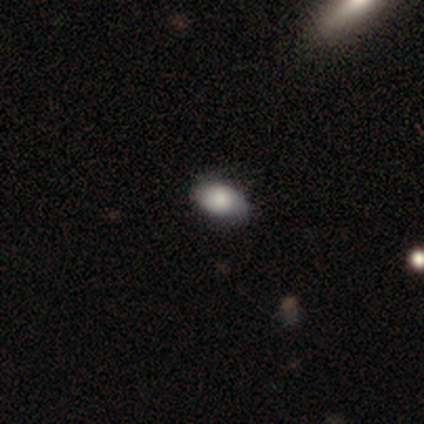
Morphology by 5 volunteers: smooth_or_featured: smooth (p=0.80) [alt: featured or disk p=0.20]
how_rounded: in between (p=1.00)
merging: none (p=0.60) [alt: minor disturbance p=0.40]